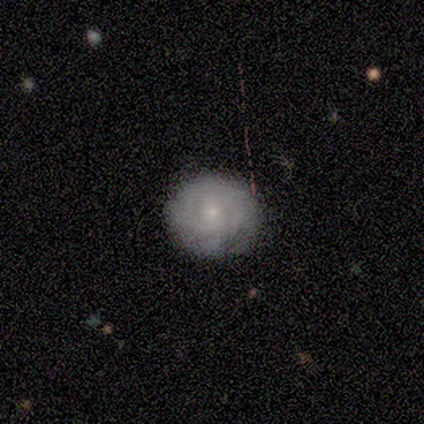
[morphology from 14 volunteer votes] featured or disk 64%, smooth 36%, star or artifact 0%. Down the decision tree: edge-on disk — no (78%); bar — no (86%); spiral arms — yes (86%); spiral arm count — can't tell (67%); spiral winding — tight (100%); bulge size — small (71%); merging — none (71%).